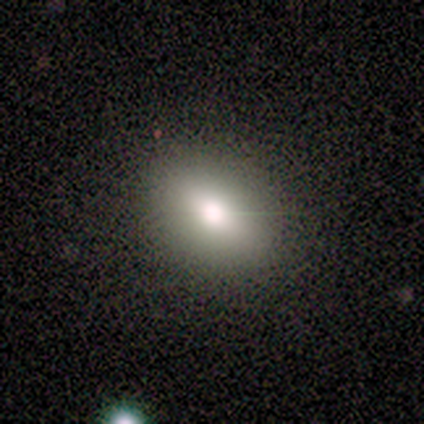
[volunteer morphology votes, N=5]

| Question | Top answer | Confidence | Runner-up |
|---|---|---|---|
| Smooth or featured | smooth | 80% | featured or disk (20%) |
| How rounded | in between | 100% | — |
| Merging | none | 80% | minor disturbance (20%) |